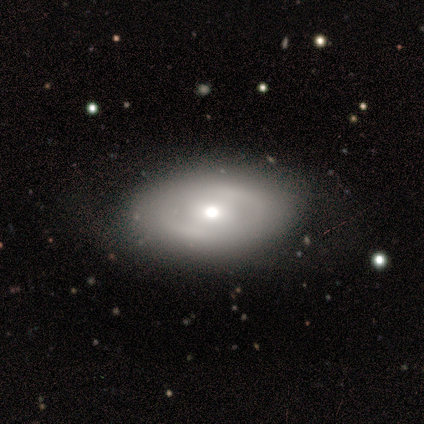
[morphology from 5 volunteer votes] smooth_or_featured: smooth (p=0.80) [alt: featured or disk p=0.20]
how_rounded: in between (p=0.75) [alt: round p=0.25]
merging: none (p=1.00)